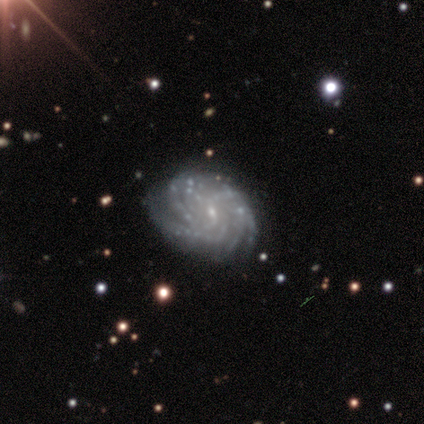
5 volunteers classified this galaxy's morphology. This appears to be a featured or disk galaxy (100%) with a weak bar (60%), more than 4 (50%, tied with can't tell) tight (75%) spiral arms (80%) and a small central bulge (80%). Merging: none (80%).